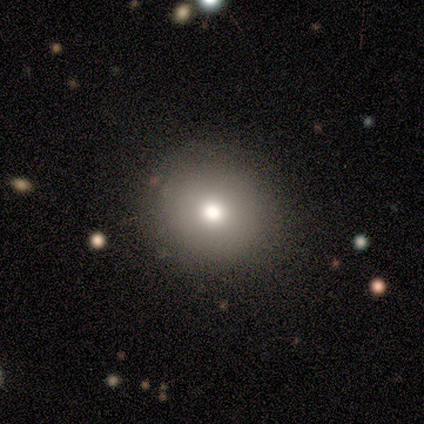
Smooth or featured? smooth (100%)
How rounded? round (100%)
Merging? none (100%)